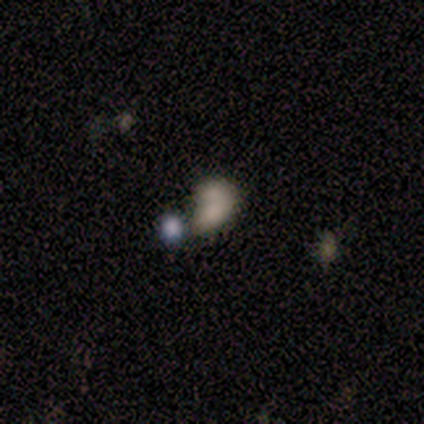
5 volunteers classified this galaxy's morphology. This is clearly a smooth galaxy (80%). How rounded: likely in between (75%). Merging: possibly major disturbance (50%, tied with merger).